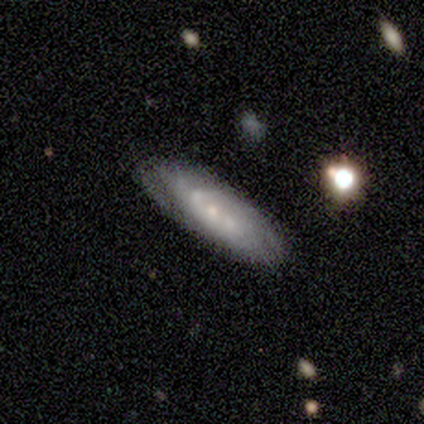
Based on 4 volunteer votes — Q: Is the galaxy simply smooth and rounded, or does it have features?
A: featured or disk — 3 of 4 (75%).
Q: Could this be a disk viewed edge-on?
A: no — 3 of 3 (100%).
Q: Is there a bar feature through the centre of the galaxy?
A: no — 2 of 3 (67%).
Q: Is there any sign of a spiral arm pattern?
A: yes — 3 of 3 (100%).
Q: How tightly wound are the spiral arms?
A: tight — 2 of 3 (67%).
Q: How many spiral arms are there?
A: can't tell — 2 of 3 (67%).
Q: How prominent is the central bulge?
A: small — 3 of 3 (100%).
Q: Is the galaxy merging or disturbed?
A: none — 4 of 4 (100%).